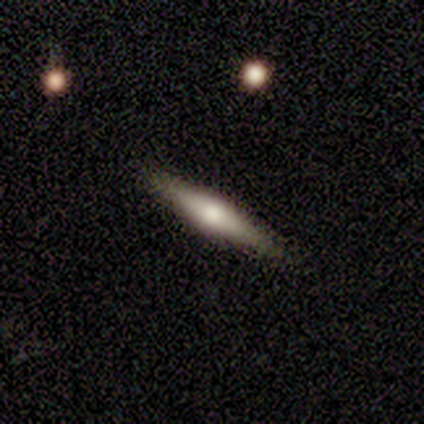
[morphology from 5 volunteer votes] Smooth or featured? 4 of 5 (80%) said smooth. How rounded? 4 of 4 (100%) said cigar-shaped. Merging? 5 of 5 (100%) said none.